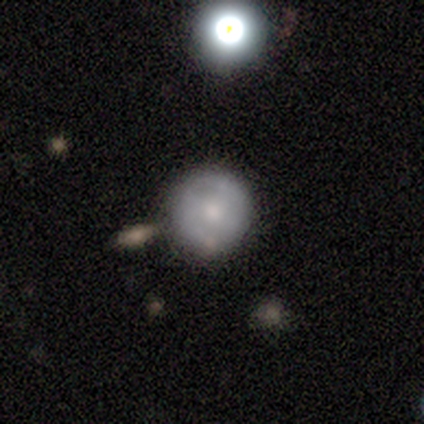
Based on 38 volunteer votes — This is possibly a smooth galaxy (50%). How rounded: clearly round (95%). Merging: likely none (72%).